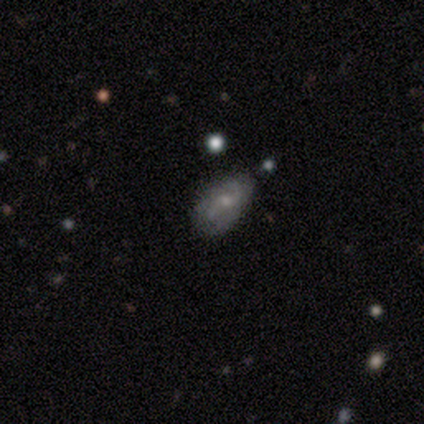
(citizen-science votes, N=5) This appears to be a featured or disk galaxy (80%) with a weak bar (50%, tied with no), 2 (75%) loose (75%) spiral arms (100%) and a small central bulge (100%). Merging: none (75%).